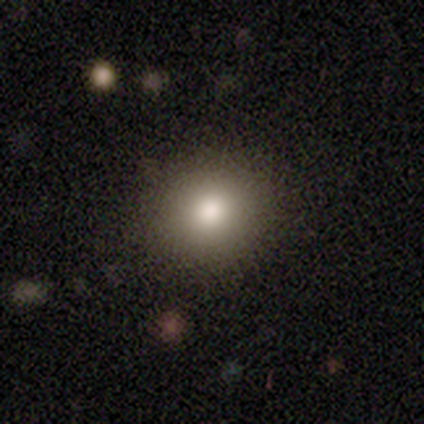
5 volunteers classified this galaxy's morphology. A smooth galaxy with no disk features (100%) that is round (80%). Merging: none (60%).